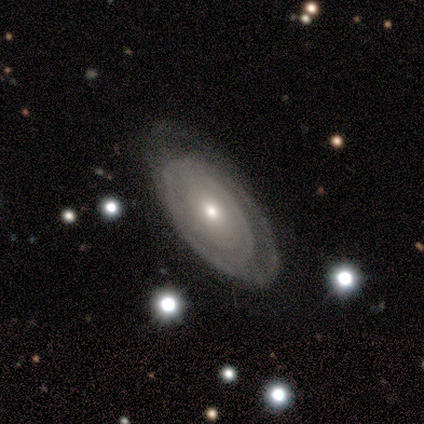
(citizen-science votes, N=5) A featured or disk galaxy (60%) with no bar (100%), tight (50%, tied with medium) spiral arms (67%) and a small central bulge (100%). Merging: none (40%, tied with minor disturbance).